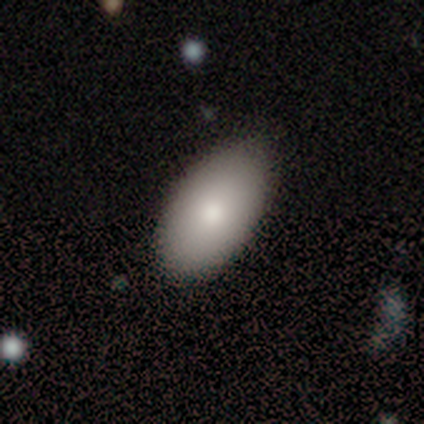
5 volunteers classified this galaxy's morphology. Smooth or featured? smooth (100%)
How rounded? in between (100%)
Merging? none (80%)